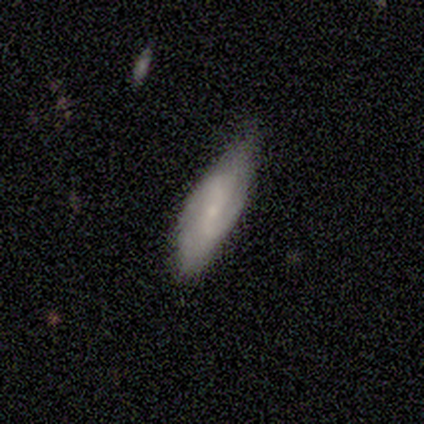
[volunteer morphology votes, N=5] A smooth galaxy with no disk features (60%) that is in between round and cigar-shaped (67%). Merging: none (50%, tied with minor disturbance).